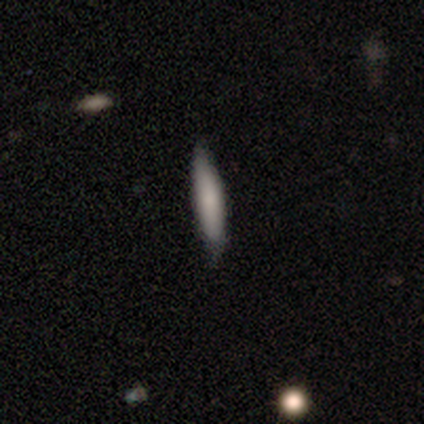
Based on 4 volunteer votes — Smooth or featured: smooth — 100%
How rounded: cigar-shaped — 75% (in between — 25%)
Merging: none — 50% (tied with minor disturbance — 50%)